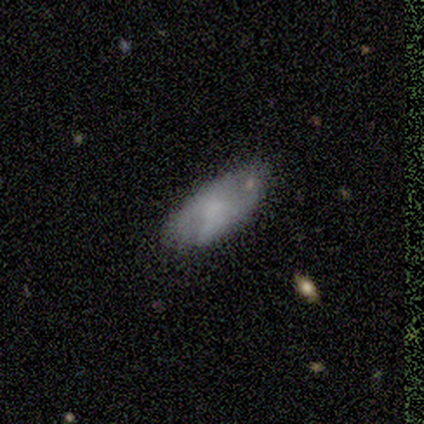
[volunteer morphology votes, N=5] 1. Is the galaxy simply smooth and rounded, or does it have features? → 100% smooth, 0% featured or disk, 0% star or artifact.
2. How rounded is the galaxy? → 80% in between, 20% cigar-shaped, 0% round.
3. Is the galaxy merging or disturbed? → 80% none, 20% minor disturbance, 0% major disturbance, 0% merger.